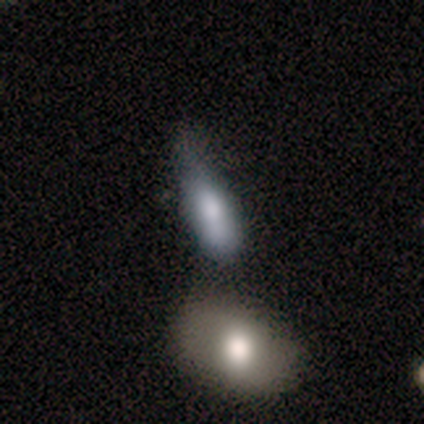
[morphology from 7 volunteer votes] Volunteers were most divided on "merging": minor disturbance: 43%, major disturbance: 29%, merger: 29%, none: 0%. More confident: how rounded — in between (100%); smooth or featured — smooth (86%).